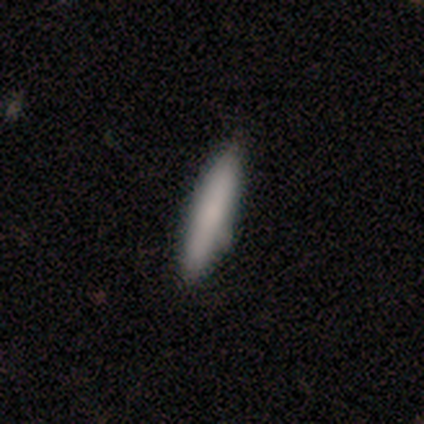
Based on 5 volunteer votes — Volunteers were most divided on "merging": none: 60%, major disturbance: 20%, merger: 20%, minor disturbance: 0%. More confident: smooth or featured — smooth (100%); how rounded — cigar-shaped (80%).